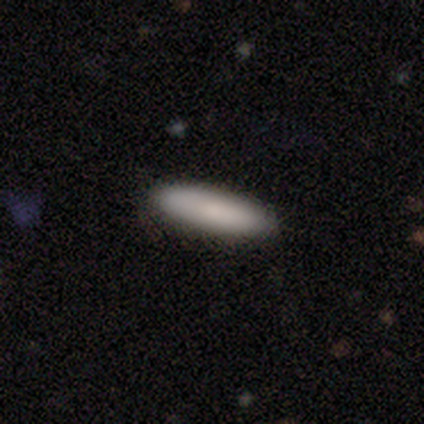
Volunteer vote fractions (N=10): Overall: smooth (100%). How rounded: cigar-shaped (70%; in between 30%). Merging: none (90%).